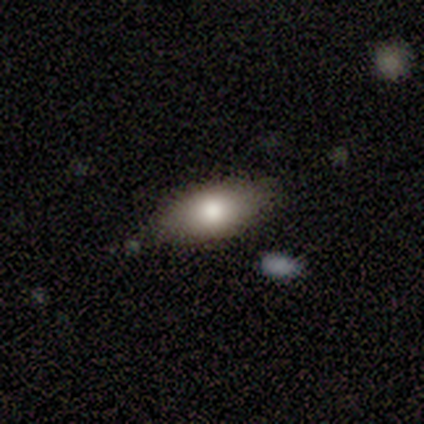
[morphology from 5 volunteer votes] Smooth or featured: smooth — 80% (star or artifact — 20%)
How rounded: in between — 75% (cigar-shaped — 25%)
Merging: none — 75% (minor disturbance — 25%)